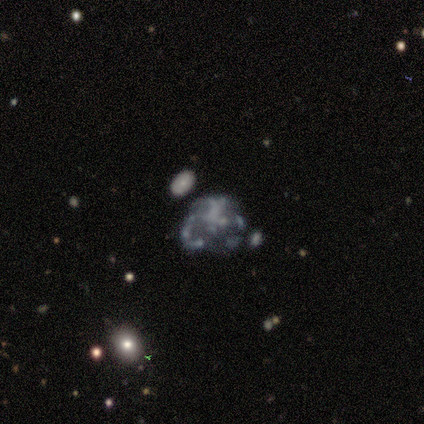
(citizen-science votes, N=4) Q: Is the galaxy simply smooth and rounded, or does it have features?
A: smooth — 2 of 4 (50%, tied with featured or disk).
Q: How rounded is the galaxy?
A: round — 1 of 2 (50%, tied with in between).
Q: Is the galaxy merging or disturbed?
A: major disturbance — 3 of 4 (75%).